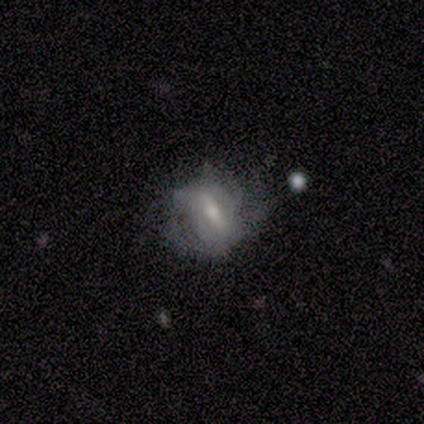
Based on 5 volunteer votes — This is clearly a featured or disk galaxy (100%). It is clearly not viewed edge-on (100%). Bar: clearly weak (80%). Spiral arm pattern: clearly yes (80%). Spiral arm count: possibly 2 (50%, tied with can't tell). Spiral winding: likely medium (75%). Central bulge: likely moderate (60%). Merging: clearly none (80%).